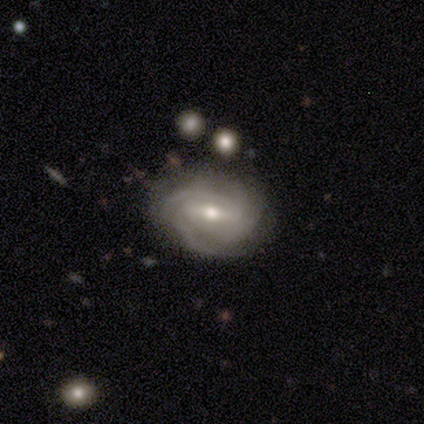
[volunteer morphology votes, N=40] smooth-or-featured: featured or disk: 80% | smooth: 12% | star or artifact: 8%
  disk-edge-on: no: 91% | yes: 9%
    bar: weak: 52% | strong: 38% | no: 10%
    has-spiral-arms: yes: 86% | no: 14%
      spiral-winding: tight: 52% | medium: 36% | loose: 12%
      spiral-arm-count: can't tell: 40% | 3: 24% | 2: 20% | 4: 12% | more than 4: 4% | 1: 0%
    bulge-size: moderate: 59% | small: 38% | large: 3% | dominant: 0% | none: 0%
  merging: none: 70% | minor disturbance: 24% | major disturbance: 3% | merger: 3%